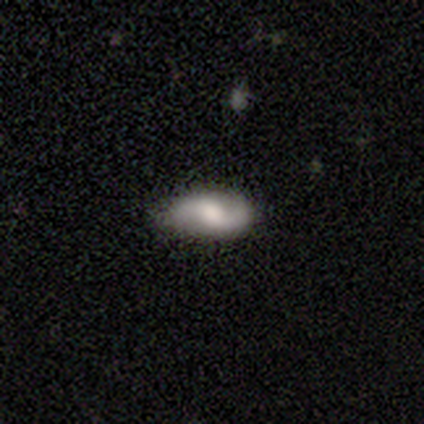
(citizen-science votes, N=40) This appears to be a featured or disk galaxy (62%) with a weak bar (60%), 2 (91%) loose (65%) spiral arms (92%) and a moderate central bulge (36%). Merging: none (89%).